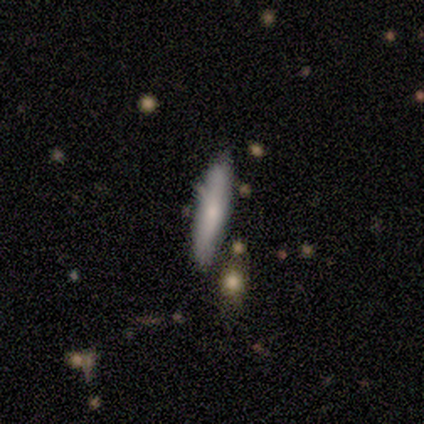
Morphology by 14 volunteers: This appears to be a smooth galaxy with no disk features (93%) that is cigar-shaped (69%). Merging: none (93%).